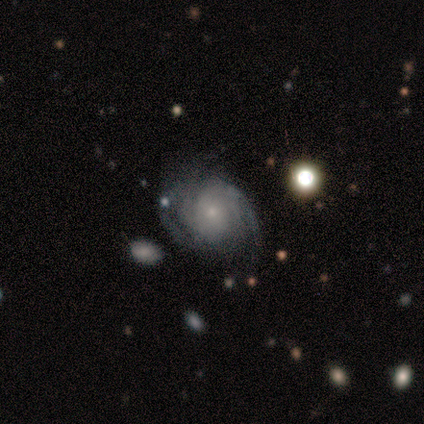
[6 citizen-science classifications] Q: Smooth or featured?
A: featured or disk (83%); runner-up: star or artifact (17%)
Q: Edge-on disk?
A: no (100%)
Q: Bar?
A: no (60%); runner-up: weak (40%)
Q: Spiral arms?
A: yes (100%)
Q: Spiral winding?
A: tight (100%)
Q: Spiral arm count?
A: can't tell (80%); runner-up: 3 (20%)
Q: Bulge size?
A: small (80%); runner-up: none (20%)
Q: Merging?
A: none (60%); runner-up: minor disturbance (20%)